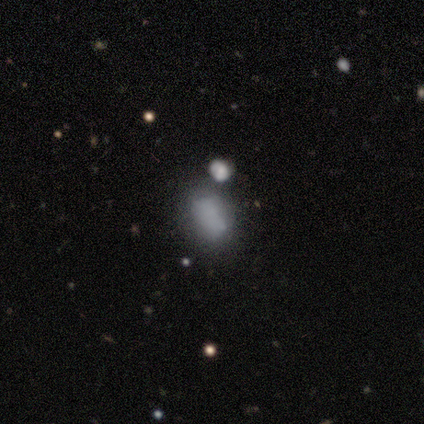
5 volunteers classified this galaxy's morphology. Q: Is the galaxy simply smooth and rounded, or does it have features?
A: smooth — 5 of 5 (100%).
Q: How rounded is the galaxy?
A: in between — 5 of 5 (100%).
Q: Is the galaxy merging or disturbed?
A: minor disturbance — 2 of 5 (40%).